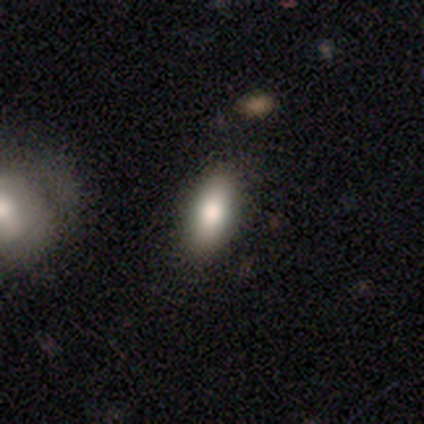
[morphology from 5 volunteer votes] Overall: smooth (80%). How rounded: in between (75%). Merging: none (75%).